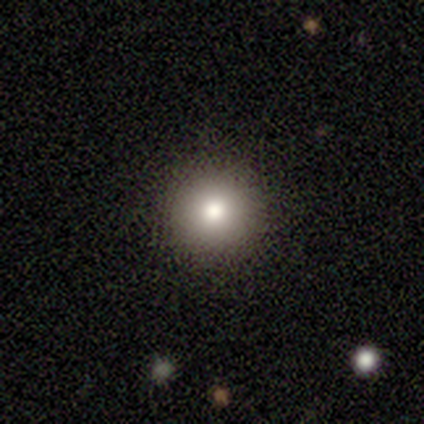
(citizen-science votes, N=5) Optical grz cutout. It shows a smooth galaxy with no disk features (60%) that is round (100%). Merging: none (100%).